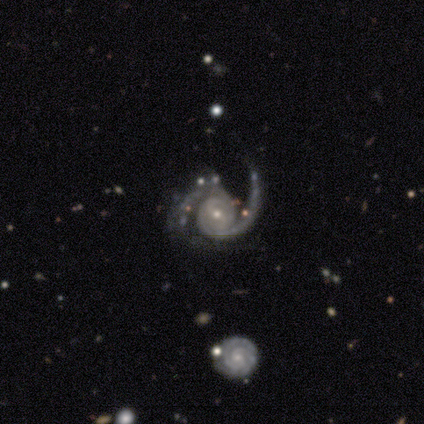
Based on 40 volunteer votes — Q: Smooth or featured?
A: featured or disk (95%); runner-up: star or artifact (5%)
Q: Edge-on disk?
A: no (100%)
Q: Bar?
A: no (50%); runner-up: weak (29%)
Q: Spiral arms?
A: yes (100%)
Q: Spiral winding?
A: medium (58%); runner-up: tight (34%)
Q: Spiral arm count?
A: 2 (89%); runner-up: 3 (5%)
Q: Bulge size?
A: small (66%); runner-up: moderate (34%)
Q: Merging?
A: none (47%); runner-up: minor disturbance (26%)